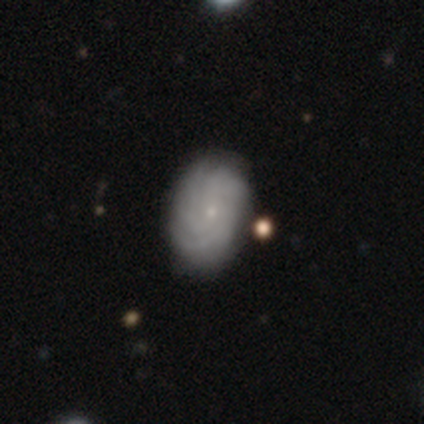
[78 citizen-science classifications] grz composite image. It shows a featured or disk galaxy (76%) with no bar (84%), tight (71%) spiral arms (91%) and a small central bulge (89%). Merging: none (42%).